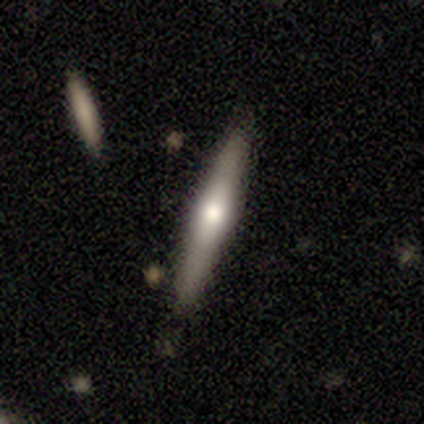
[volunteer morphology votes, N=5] Smooth or featured?
  - featured or disk: 100% *
  - smooth: 0%
  - star or artifact: 0%
Edge-on disk?
  - yes: 80% *
  - no: 20%
Edge-on bulge?
  - rounded: 100% *
  - boxy: 0%
  - none: 0%
Merging?
  - none: 60% *
  - minor disturbance: 40%
  - major disturbance: 0%
  - merger: 0%